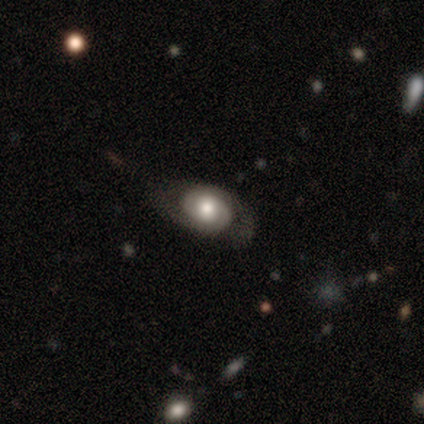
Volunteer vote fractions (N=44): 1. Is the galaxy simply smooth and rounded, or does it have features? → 70% featured or disk, 30% smooth, 0% star or artifact.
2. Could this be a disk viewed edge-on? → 97% no, 3% yes.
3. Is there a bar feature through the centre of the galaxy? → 80% no, 13% weak, 7% strong.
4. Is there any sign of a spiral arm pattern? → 90% yes, 10% no.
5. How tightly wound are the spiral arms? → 56% tight, 37% medium, 7% loose.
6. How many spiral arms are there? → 74% 2, 11% can't tell, 7% 1, 7% 3, 0% 4, 0% more than 4.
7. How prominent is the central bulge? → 60% moderate, 30% large, 10% small, 0% dominant, 0% none.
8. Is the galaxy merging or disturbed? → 66% none, 27% minor disturbance, 5% major disturbance, 2% merger.